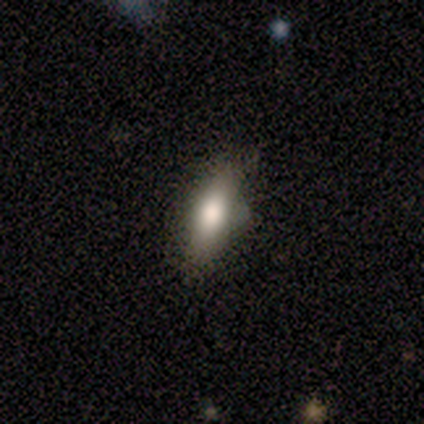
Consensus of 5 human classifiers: Morphology: type=smooth (80%); roundness=cigar-shaped (75%); merging=none (40%, tied with minor disturbance).